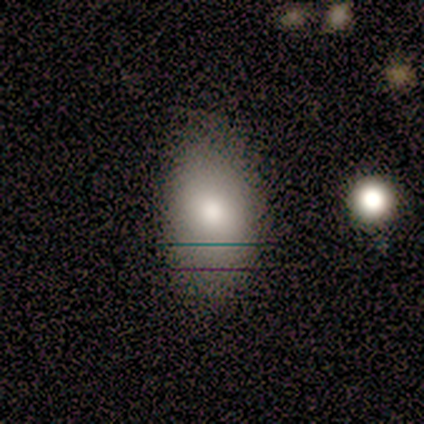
Smooth or featured? 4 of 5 (80%) said smooth. How rounded? 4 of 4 (100%) said in between. Merging? 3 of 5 (60%) said none.